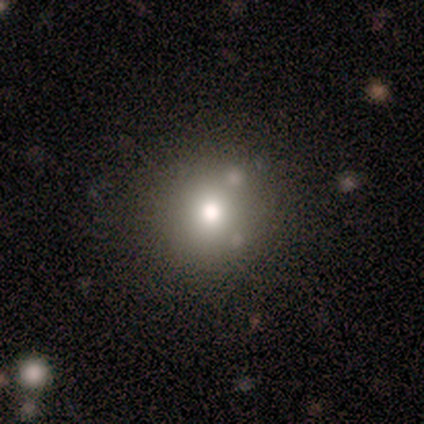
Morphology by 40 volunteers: Overall: smooth (62%). How rounded: round (92%). Merging: none (85%).